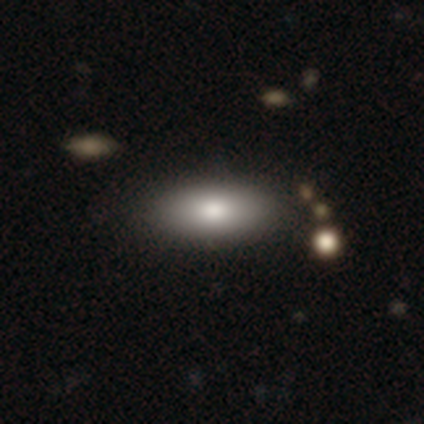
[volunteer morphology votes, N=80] smooth-or-featured: smooth: 89% | featured or disk: 9% | star or artifact: 2%
  how-rounded: in between: 87% | cigar-shaped: 11% | round: 1%
  merging: none: 46% | minor disturbance: 4% | merger: 1% | major disturbance: 0%